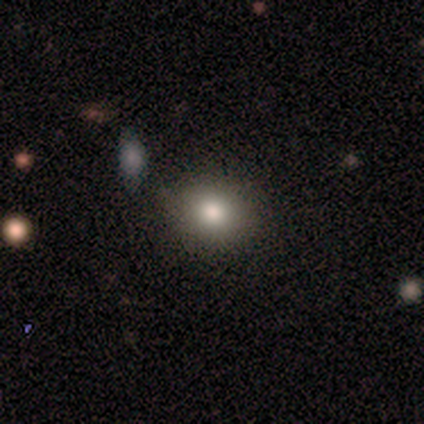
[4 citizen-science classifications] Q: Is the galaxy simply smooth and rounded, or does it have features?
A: featured or disk — 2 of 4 (50%).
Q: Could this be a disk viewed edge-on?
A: no — 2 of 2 (100%).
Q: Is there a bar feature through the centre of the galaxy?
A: no — 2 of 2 (100%).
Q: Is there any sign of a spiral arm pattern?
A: no — 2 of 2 (100%).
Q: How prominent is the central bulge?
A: large — 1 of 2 (50%, tied with moderate).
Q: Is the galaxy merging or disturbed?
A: none — 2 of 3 (67%).